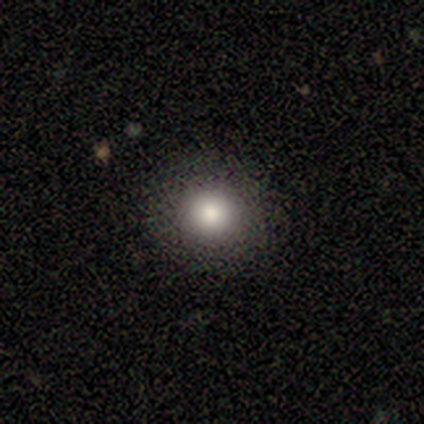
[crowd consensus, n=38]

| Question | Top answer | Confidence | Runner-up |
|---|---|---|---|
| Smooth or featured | smooth | 87% | featured or disk (11%) |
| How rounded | round | 97% | in between (3%) |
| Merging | none | 54% | minor disturbance (5%) |